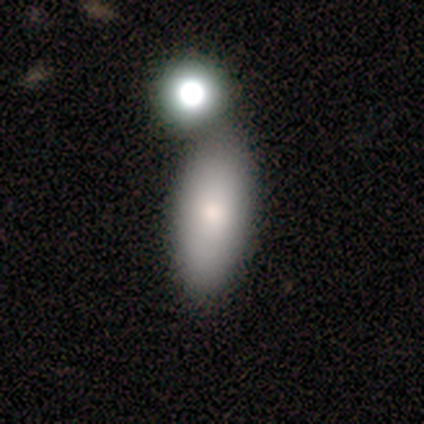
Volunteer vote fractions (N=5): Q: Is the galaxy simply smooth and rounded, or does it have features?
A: smooth — 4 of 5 (80%).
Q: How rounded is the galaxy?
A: in between — 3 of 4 (75%).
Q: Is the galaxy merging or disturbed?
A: none — 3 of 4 (75%).